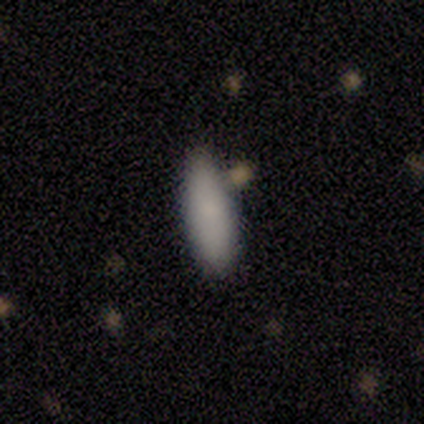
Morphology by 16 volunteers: This is clearly a smooth galaxy (94%). How rounded: likely cigar-shaped (60%). Merging: clearly none (87%).